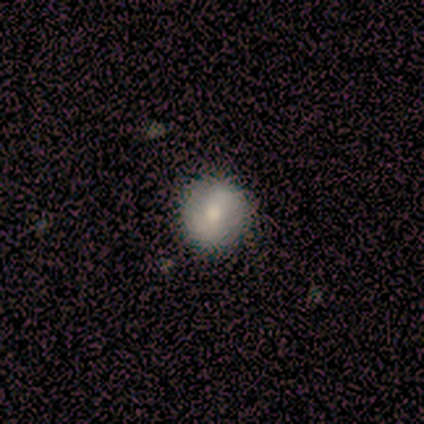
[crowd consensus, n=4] Volunteers were most divided on "smooth or featured" (2-way tie): smooth: 50%, featured or disk: 50%, star or artifact: 0%. More confident: how rounded — round (100%); merging — none (100%).